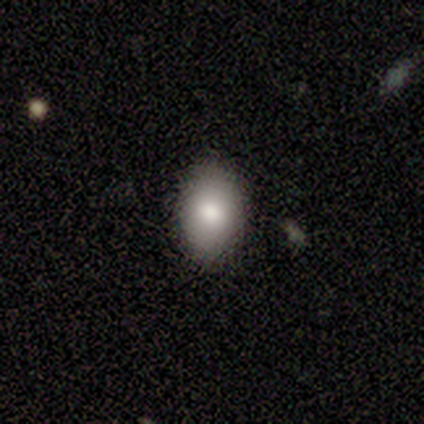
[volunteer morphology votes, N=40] type=smooth (78%); roundness=in between (94%); merging=none (89%).